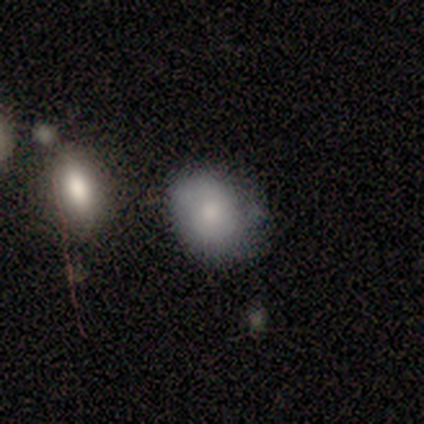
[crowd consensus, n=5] This is likely a smooth galaxy (60%). How rounded: likely in between (67%). Merging: likely none (60%).